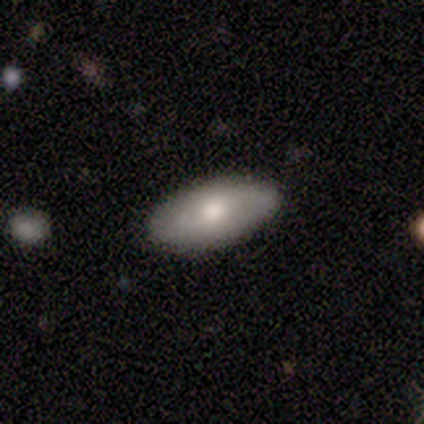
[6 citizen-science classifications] This is likely a smooth galaxy (67%). How rounded: clearly in between (100%). Merging: clearly none (100%).